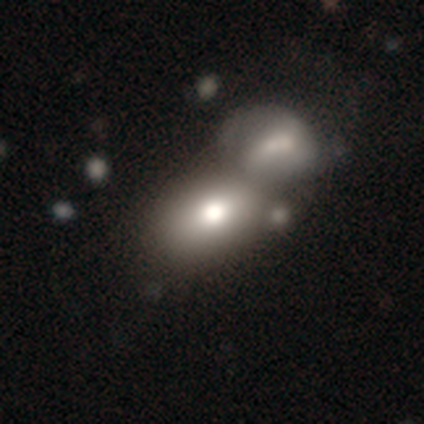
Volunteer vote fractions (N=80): Volunteers were most divided on "how rounded": in between: 67%, round: 32%, cigar-shaped: 2%. More confident: smooth or featured — smooth (75%); merging — merger (67%).